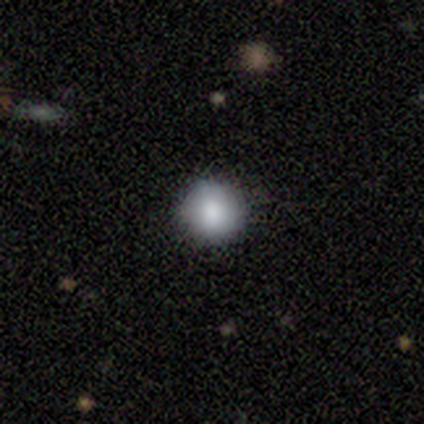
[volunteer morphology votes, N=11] smooth 82%, featured or disk 9%, star or artifact 9%. Down the decision tree: how rounded — round (100%); merging — none (90%).